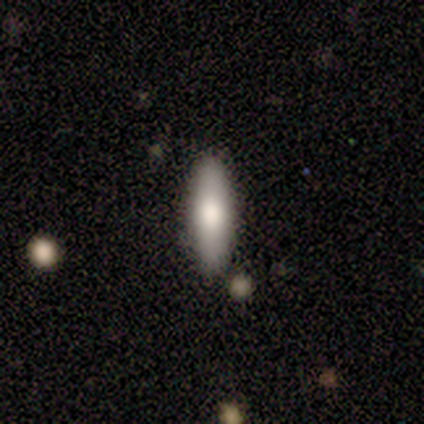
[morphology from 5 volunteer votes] A smooth galaxy with no disk features (60%) that is cigar-shaped (100%).

Vote fractions:
- Smooth or featured? smooth: 60% / featured or disk: 40% / star or artifact: 0%
- How rounded? cigar-shaped: 100% / round: 0% / in between: 0%
- Merging? none: 80% / major disturbance: 20% / minor disturbance: 0% / merger: 0%